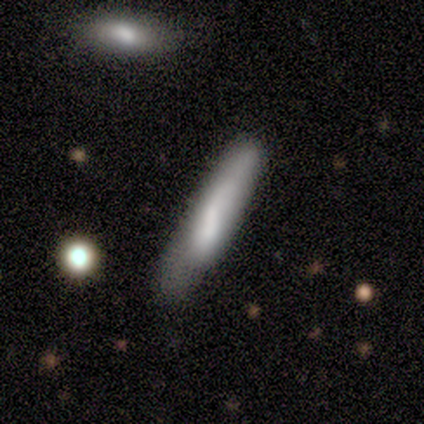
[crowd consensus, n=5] Smooth or featured: featured or disk — 60% (smooth — 40%)
Edge-on disk: yes — 67% (no — 33%)
Edge-on bulge: none — 50% (tied with rounded — 50%)
Merging: none — 60% (minor disturbance — 40%)